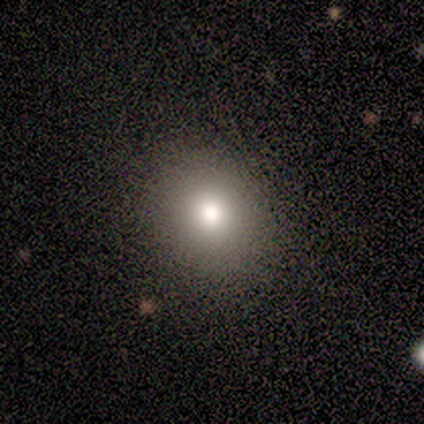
smooth 60%, star or artifact 40%, featured or disk 0%. Down the decision tree: how rounded — round (100%); merging — none (100%).